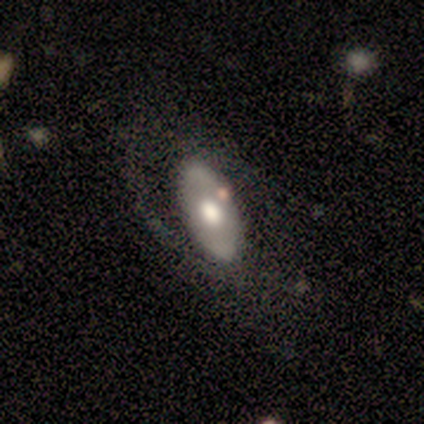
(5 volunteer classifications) A smooth galaxy with no disk features (60%) that is in between round and cigar-shaped (100%). Merging: none (60%).